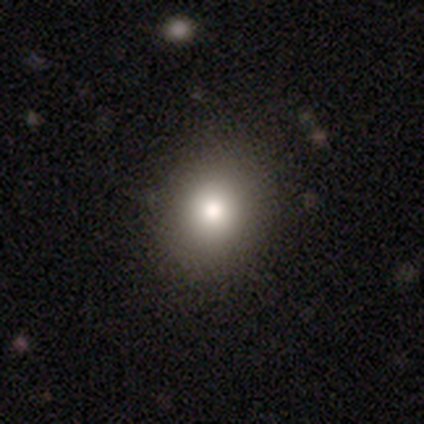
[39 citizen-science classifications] A smooth galaxy with no disk features (85%) that is round (73%). Merging: none (84%).